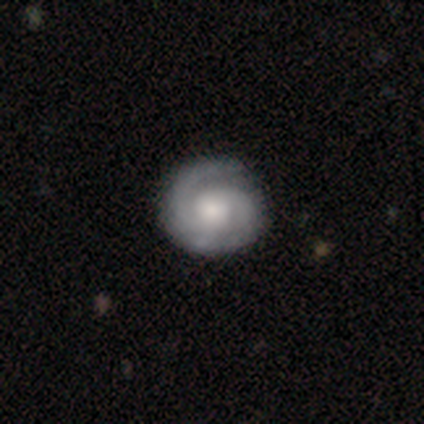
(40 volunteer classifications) A featured or disk galaxy (85%) with no bar (68%), 2 (75%) tight (62%) spiral arms (94%) and a moderate central bulge (53%).

Vote fractions:
- Smooth or featured? featured or disk: 85% / smooth: 15% / star or artifact: 0%
- Edge-on disk? no: 100% / yes: 0%
- Bar? no: 68% / weak: 32% / strong: 0%
- Spiral arms? yes: 94% / no: 6%
- Spiral winding? tight: 62% / medium: 31% / loose: 6%
- Spiral arm count? 2: 75% / 3: 12% / 1: 6% / can't tell: 6% / 4: 0% / more than 4: 0%
- Bulge size? moderate: 53% / large: 29% / small: 15% / dominant: 3% / none: 0%
- Merging? none: 65% / minor disturbance: 8% / major disturbance: 2% / merger: 2%